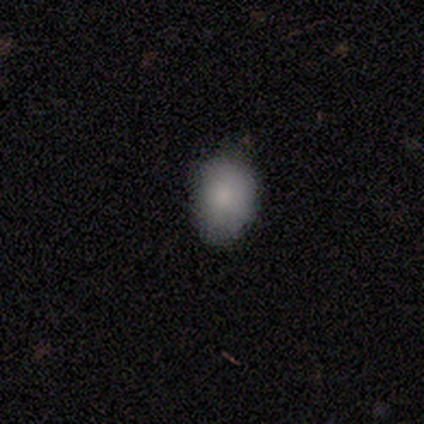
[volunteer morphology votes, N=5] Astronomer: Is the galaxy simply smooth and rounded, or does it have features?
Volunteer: smooth — 80%.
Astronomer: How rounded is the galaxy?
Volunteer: in between — 75%.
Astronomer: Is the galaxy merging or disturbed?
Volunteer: none — 75%.